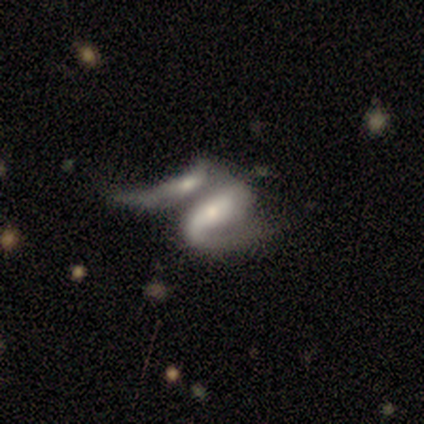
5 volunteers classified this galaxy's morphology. Smooth or featured? 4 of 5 (80%) said featured or disk. Edge-on disk? 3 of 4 (75%) said no. Bar? 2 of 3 (67%) said weak. Spiral arms? 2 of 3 (67%) said yes. Spiral winding? 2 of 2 (100%) said medium. Spiral arm count? 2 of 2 (100%) said 2. Bulge size? 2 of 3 (67%) said small. Merging? 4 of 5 (80%) said merger.